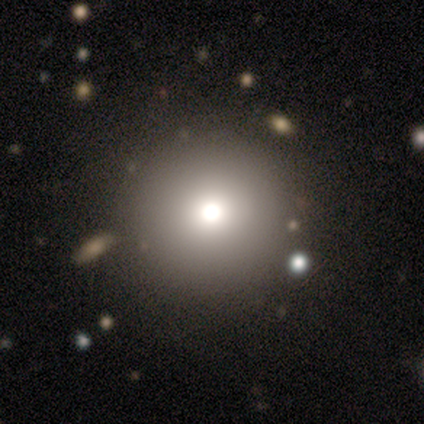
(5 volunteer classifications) smooth 100%, featured or disk 0%, star or artifact 0%. Down the decision tree: how rounded — round (100%); merging — none (100%).